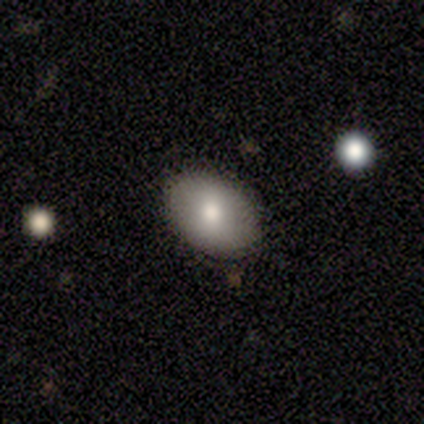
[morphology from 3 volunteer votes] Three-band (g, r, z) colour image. It shows a smooth galaxy with no disk features (100%) that is in between round and cigar-shaped (100%). Merging: none (100%).